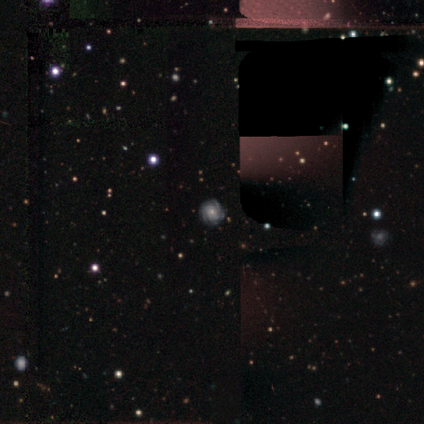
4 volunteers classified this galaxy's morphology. Smooth or featured? featured or disk (100%)
Edge-on disk? no (100%)
Bar? weak (50%, tied with no)
Spiral arms? yes (100%)
Spiral winding? tight (100%)
Spiral arm count? can't tell (50%)
Bulge size? small (75%)
Merging? none (100%)